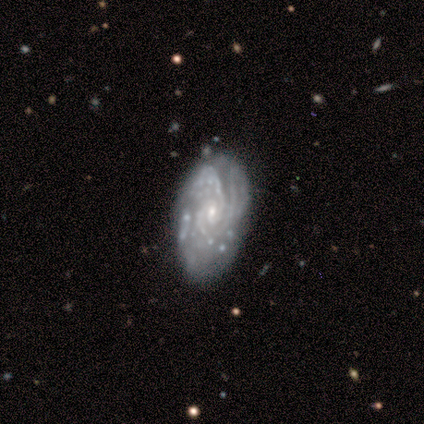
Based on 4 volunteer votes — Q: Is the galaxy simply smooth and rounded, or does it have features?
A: featured or disk — 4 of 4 (100%).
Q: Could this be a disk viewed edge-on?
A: no — 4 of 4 (100%).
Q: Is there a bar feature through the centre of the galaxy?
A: no — 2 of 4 (50%).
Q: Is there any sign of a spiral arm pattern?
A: yes — 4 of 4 (100%).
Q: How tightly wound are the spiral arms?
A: tight — 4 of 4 (100%).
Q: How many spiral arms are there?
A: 3 — 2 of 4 (50%).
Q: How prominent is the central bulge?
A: small — 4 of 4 (100%).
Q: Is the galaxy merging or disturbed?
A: none — 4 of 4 (100%).